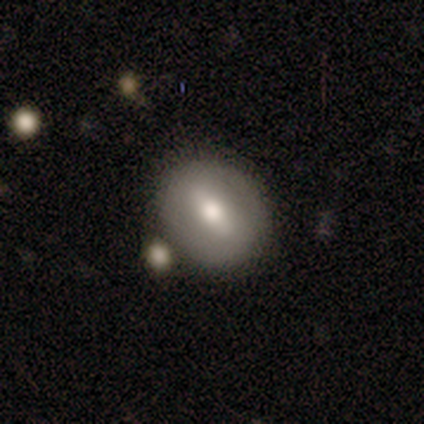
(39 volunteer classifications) Morphology: type=smooth (69%); roundness=round (70%); merging=none (69%).